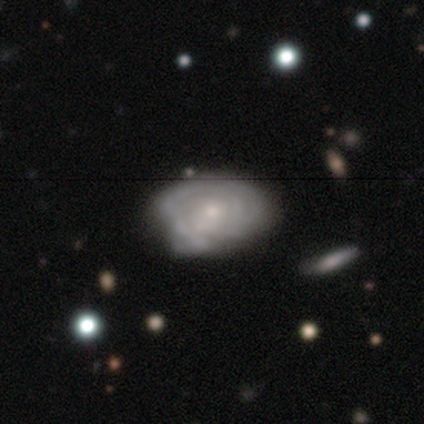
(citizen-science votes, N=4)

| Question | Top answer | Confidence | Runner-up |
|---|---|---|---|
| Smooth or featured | featured or disk | 75% | smooth (25%) |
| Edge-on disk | no | 100% | — |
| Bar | no | 100% | — |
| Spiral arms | no | 67% | yes (33%) |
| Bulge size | small | 67% | moderate (33%) |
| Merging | none | 75% | minor disturbance (25%) |